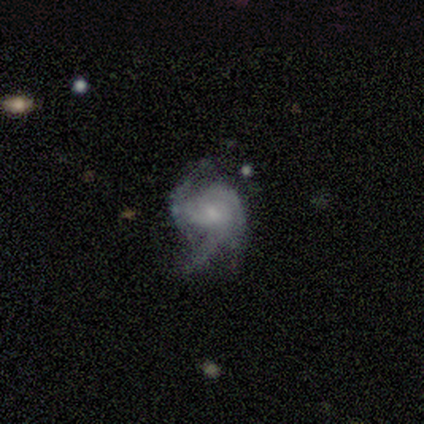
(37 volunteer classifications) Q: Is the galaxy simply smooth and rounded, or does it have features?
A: featured or disk — 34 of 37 (92%).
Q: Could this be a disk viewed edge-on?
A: no — 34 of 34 (100%).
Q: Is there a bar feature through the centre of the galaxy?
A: no — 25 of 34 (74%).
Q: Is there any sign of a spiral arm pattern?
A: yes — 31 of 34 (91%).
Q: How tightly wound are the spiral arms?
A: medium — 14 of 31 (45%).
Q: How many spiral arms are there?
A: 3 — 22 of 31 (71%).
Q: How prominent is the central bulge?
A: small — 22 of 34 (65%).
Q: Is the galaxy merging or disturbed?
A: none — 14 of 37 (38%).